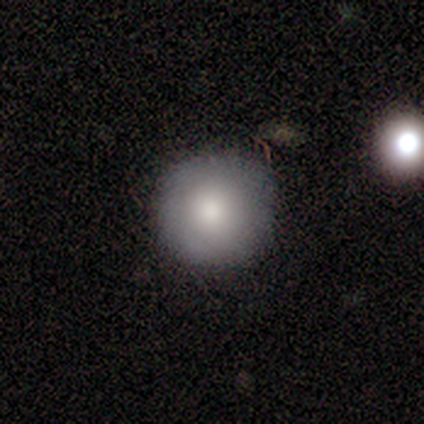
Smooth or featured? smooth (80%)
How rounded? round (100%)
Merging? none (100%)